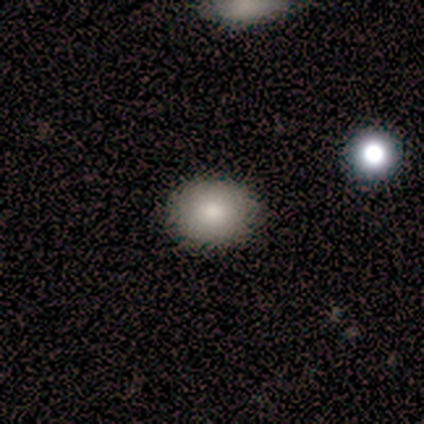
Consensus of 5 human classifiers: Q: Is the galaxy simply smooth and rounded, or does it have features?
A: smooth — 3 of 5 (60%).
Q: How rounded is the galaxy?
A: round — 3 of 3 (100%).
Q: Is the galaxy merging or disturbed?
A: none — 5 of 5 (100%).